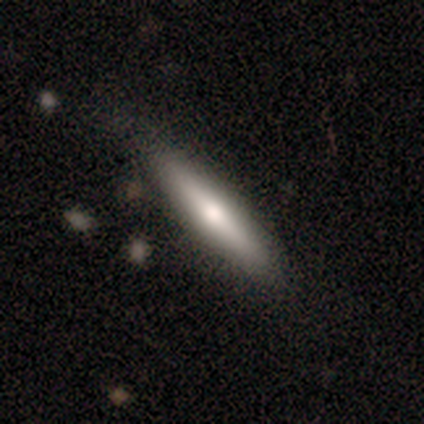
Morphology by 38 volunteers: Smooth or featured?
  - featured or disk: 53% *
  - smooth: 45%
  - star or artifact: 3%
Edge-on disk?
  - yes: 90% *
  - no: 10%
Edge-on bulge?
  - rounded: 83% *
  - none: 11%
  - boxy: 6%
Merging?
  - none: 84% *
  - minor disturbance: 14%
  - merger: 3%
  - major disturbance: 0%